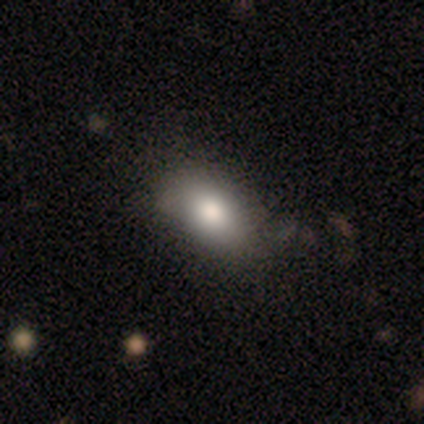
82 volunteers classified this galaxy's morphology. Q: Smooth or featured?
A: smooth (78%); runner-up: star or artifact (12%)
Q: How rounded?
A: in between (92%); runner-up: cigar-shaped (6%)
Q: Merging?
A: none (62%); runner-up: minor disturbance (26%)